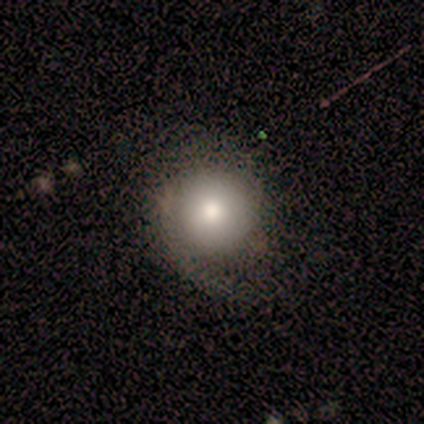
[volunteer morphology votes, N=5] A smooth galaxy with no disk features (100%) that is round (100%). Merging: none (40%, tied with major disturbance).